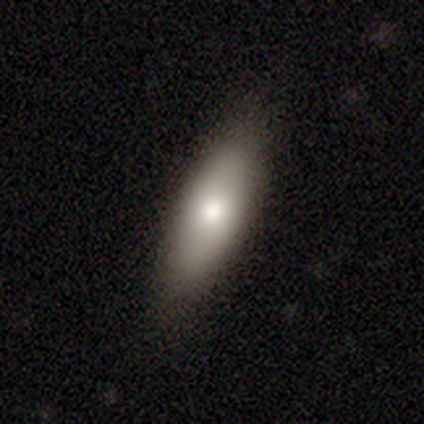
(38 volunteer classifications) Q: Smooth or featured?
A: smooth (82%); runner-up: featured or disk (16%)
Q: How rounded?
A: in between (55%); runner-up: cigar-shaped (39%)
Q: Merging?
A: none (86%); runner-up: minor disturbance (14%)